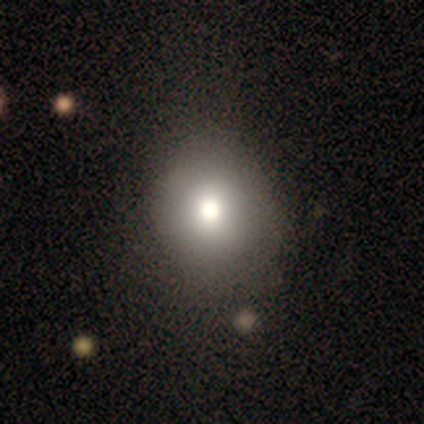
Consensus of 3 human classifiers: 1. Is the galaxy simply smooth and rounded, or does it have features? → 67% smooth, 33% star or artifact, 0% featured or disk.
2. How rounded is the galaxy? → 100% round, 0% in between, 0% cigar-shaped.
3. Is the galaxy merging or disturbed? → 100% none, 0% minor disturbance, 0% major disturbance, 0% merger.